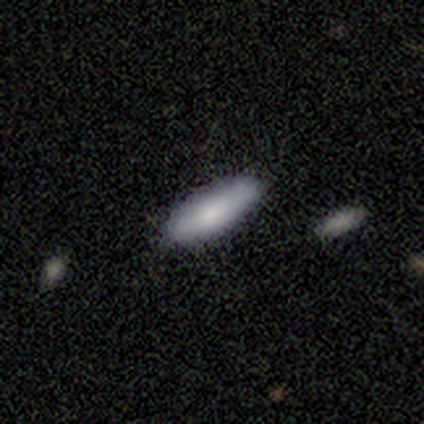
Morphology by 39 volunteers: Smooth or featured?
  - smooth: 92% *
  - star or artifact: 8%
  - featured or disk: 0%
How rounded?
  - in between: 61% *
  - cigar-shaped: 39%
  - round: 0%
Merging?
  - none: 83% *
  - minor disturbance: 17%
  - major disturbance: 0%
  - merger: 0%